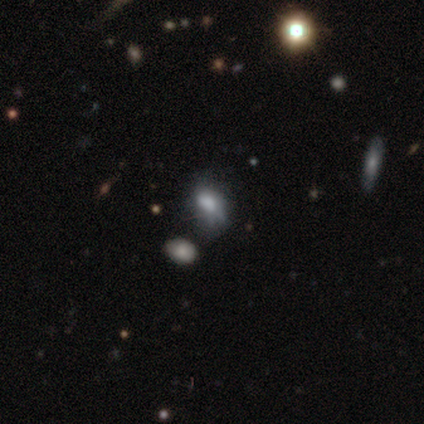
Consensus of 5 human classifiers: A smooth galaxy with no disk features (60%) that is in between round and cigar-shaped (67%).

Vote fractions:
- Smooth or featured? smooth: 60% / featured or disk: 40% / star or artifact: 0%
- How rounded? in between: 67% / round: 33% / cigar-shaped: 0%
- Merging? none: 40% (tied) / minor disturbance: 40% (tied) / major disturbance: 20% / merger: 0%